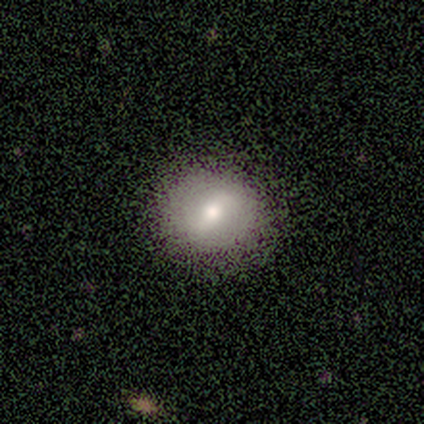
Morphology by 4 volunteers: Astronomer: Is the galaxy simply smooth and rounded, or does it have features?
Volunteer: smooth — 50%, tied with featured or disk at 50%.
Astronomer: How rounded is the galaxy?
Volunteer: round — 100%.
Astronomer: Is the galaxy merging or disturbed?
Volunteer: none — 100%.